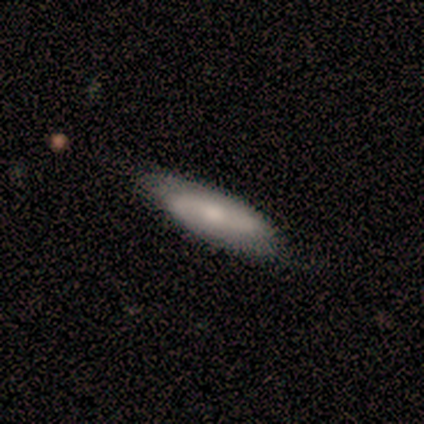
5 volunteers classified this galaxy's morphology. A smooth galaxy with no disk features (80%) that is cigar-shaped (75%). Merging: none (60%).